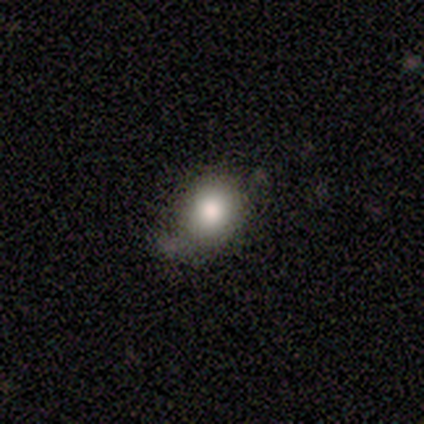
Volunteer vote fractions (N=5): smooth-or-featured: smooth: 100% | featured or disk: 0% | star or artifact: 0%
  how-rounded: round: 80% | in between: 20% | cigar-shaped: 0%
  merging: none: 80% | minor disturbance: 20% | major disturbance: 0% | merger: 0%